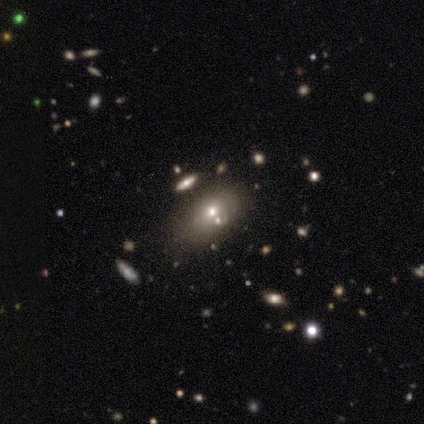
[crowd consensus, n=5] Smooth or featured: smooth — 80% (featured or disk — 20%)
How rounded: in between — 100%
Merging: none — 60% (major disturbance — 20%)